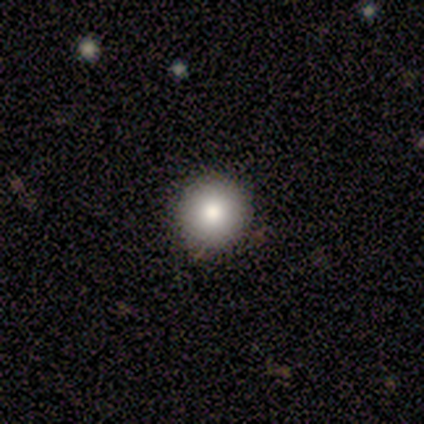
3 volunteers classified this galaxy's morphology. Overall: smooth (100%). How rounded: round (67%; in between 33%). Merging: none (100%).